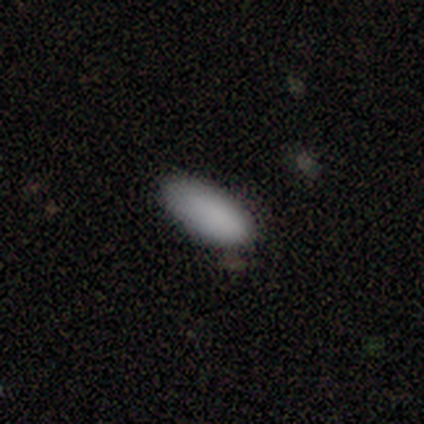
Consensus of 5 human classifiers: Smooth or featured?
  - smooth: 100% *
  - featured or disk: 0%
  - star or artifact: 0%
How rounded?
  - in between: 100% *
  - round: 0%
  - cigar-shaped: 0%
Merging?
  - none: 80% *
  - minor disturbance: 20%
  - major disturbance: 0%
  - merger: 0%